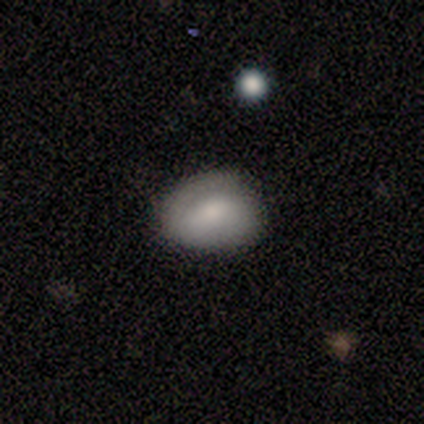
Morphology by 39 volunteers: type=smooth (77%); roundness=in between (50%); merging=none (62%).